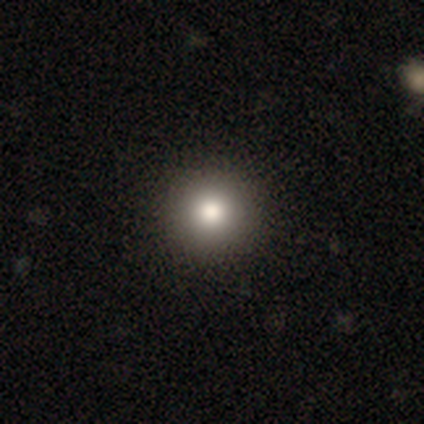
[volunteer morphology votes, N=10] Smooth or featured? 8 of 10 (80%) said smooth. How rounded? 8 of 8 (100%) said round. Merging? 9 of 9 (100%) said none.